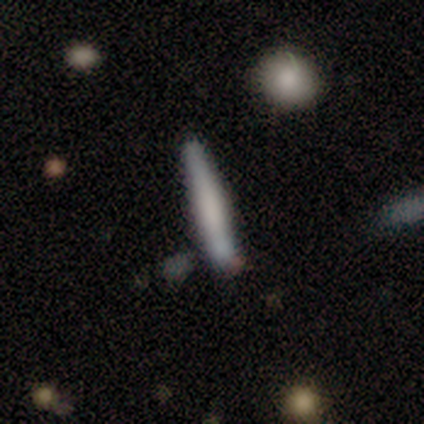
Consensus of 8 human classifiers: Smooth or featured? 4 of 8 (50%) said smooth. How rounded? 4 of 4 (100%) said cigar-shaped. Merging? 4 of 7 (57%) said none.